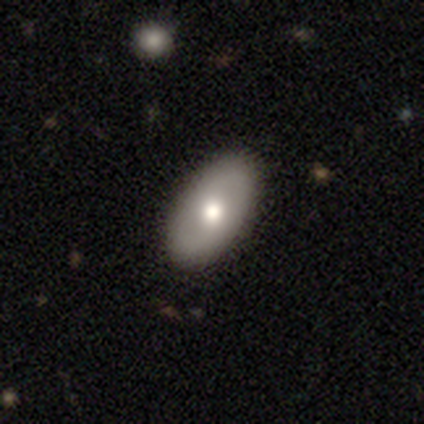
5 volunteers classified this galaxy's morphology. smooth-or-featured: featured or disk: 60% | smooth: 40% | star or artifact: 0%
  disk-edge-on: no: 100% | yes: 0%
    bar: no: 100% | strong: 0% | weak: 0%
    has-spiral-arms: no: 67% | yes: 33%
    bulge-size: moderate: 100% | dominant: 0% | large: 0% | small: 0% | none: 0%
  merging: none: 80% | major disturbance: 20% | minor disturbance: 0% | merger: 0%